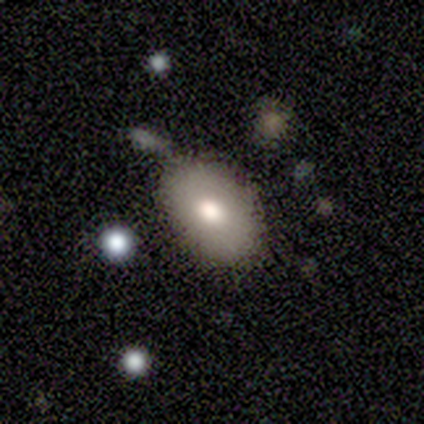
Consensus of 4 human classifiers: Smooth or featured? 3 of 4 (75%) said smooth. How rounded? 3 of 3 (100%) said in between. Merging? 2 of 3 (67%) said none.